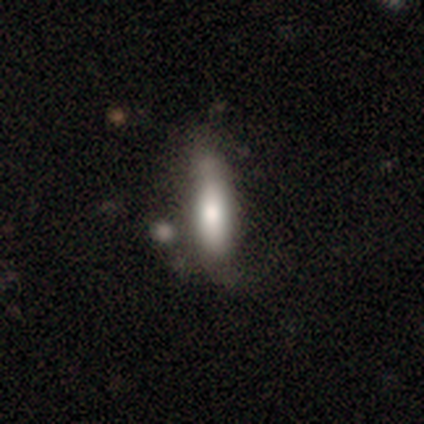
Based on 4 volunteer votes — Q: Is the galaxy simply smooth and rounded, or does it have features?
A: smooth — 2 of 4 (50%).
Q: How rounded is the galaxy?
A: in between — 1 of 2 (50%, tied with cigar-shaped).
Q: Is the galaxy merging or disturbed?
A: none — 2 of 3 (67%).